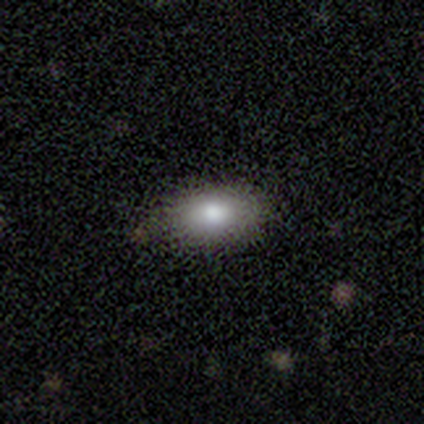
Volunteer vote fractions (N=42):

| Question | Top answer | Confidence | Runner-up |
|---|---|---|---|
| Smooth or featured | smooth | 86% | featured or disk (10%) |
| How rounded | in between | 97% | round (3%) |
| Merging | none | 80% | minor disturbance (15%) |